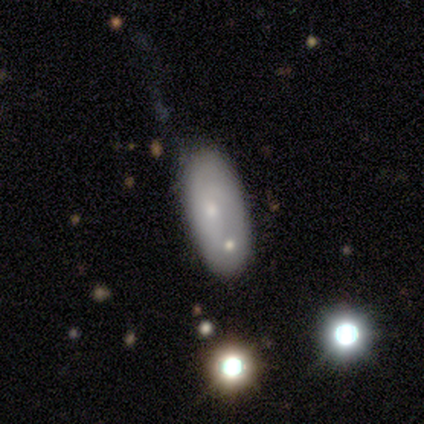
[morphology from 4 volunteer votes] Smooth or featured?
  - smooth: 75% *
  - featured or disk: 25%
  - star or artifact: 0%
How rounded?
  - in between: 67% *
  - cigar-shaped: 33%
  - round: 0%
Merging?
  - none: 50% *
  - minor disturbance: 25%
  - merger: 25%
  - major disturbance: 0%